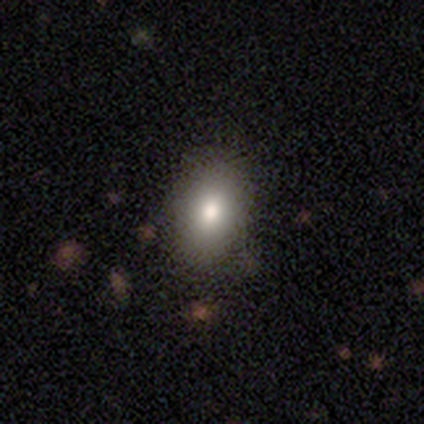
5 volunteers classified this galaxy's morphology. Smooth or featured? smooth (100%)
How rounded? in between (80%)
Merging? none (60%)